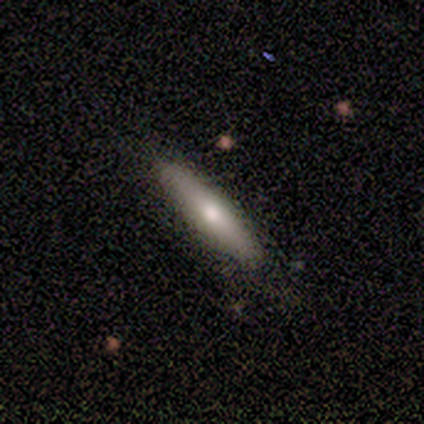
smooth-or-featured: smooth: 100% | featured or disk: 0% | star or artifact: 0%
  how-rounded: cigar-shaped: 100% | round: 0% | in between: 0%
  merging: none: 100% | minor disturbance: 0% | major disturbance: 0% | merger: 0%